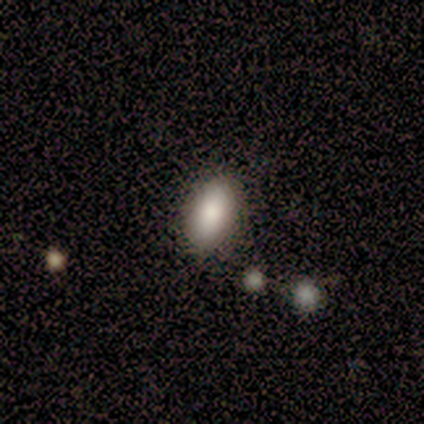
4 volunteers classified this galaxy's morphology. This is likely a smooth galaxy (75%). How rounded: likely in between (67%). Merging: clearly none (100%).